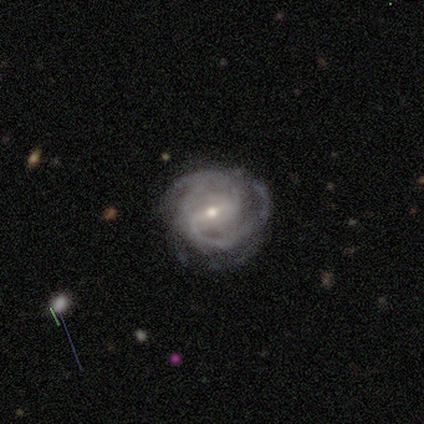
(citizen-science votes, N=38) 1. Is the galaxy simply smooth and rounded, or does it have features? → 87% featured or disk, 11% star or artifact, 3% smooth.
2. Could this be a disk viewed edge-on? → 94% no, 6% yes.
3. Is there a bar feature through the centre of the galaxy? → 45% weak, 42% strong, 13% no.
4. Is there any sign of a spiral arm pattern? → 97% yes, 3% no.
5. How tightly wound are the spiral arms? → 50% tight, 43% medium, 7% loose.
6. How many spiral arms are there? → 63% 2, 27% 3, 10% can't tell, 0% 1, 0% 4, 0% more than 4.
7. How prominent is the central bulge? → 52% small, 42% moderate, 6% large, 0% dominant, 0% none.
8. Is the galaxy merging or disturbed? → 71% none, 18% major disturbance, 12% minor disturbance, 0% merger.